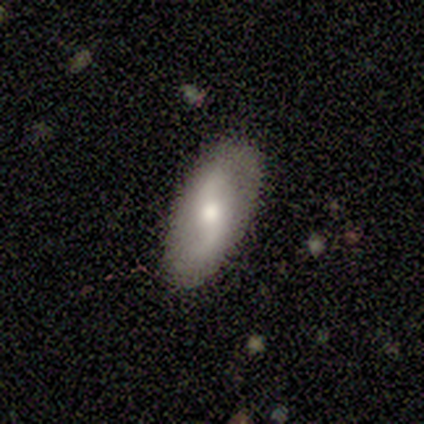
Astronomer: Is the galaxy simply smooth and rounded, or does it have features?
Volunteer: featured or disk — 74%.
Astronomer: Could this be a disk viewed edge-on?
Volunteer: no — 86%.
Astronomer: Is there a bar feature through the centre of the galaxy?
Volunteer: no — 46% (runner-up: weak, 38%).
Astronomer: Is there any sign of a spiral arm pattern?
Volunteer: yes — 75%.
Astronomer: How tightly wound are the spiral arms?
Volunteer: loose — 89%.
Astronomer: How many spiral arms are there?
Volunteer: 2 — 100%.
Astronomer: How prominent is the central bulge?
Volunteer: moderate — 54%.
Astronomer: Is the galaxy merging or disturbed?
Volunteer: none — 87%.